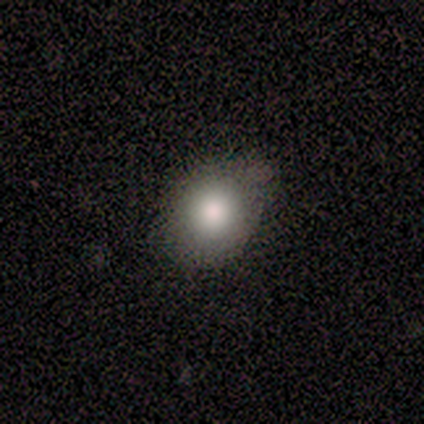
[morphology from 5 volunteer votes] Volunteers were most divided on "how rounded" (2-way tie): round: 50%, in between: 50%, cigar-shaped: 0%. More confident: merging — none (100%); smooth or featured — smooth (80%).